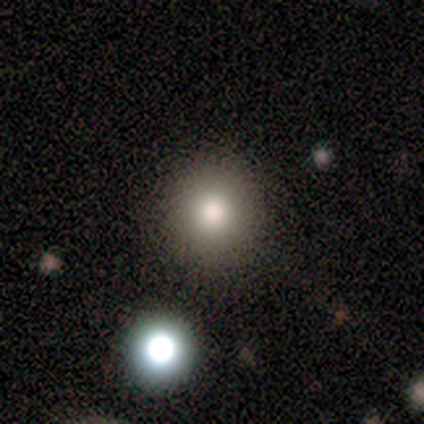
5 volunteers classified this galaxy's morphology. type=smooth (80%); roundness=round (100%); merging=none (100%).